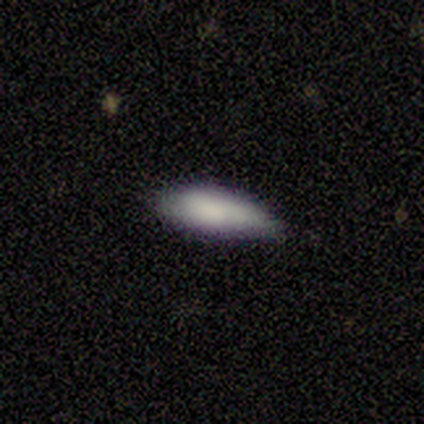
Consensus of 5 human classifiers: A smooth galaxy with no disk features (100%) that is in between round and cigar-shaped (80%).

Vote fractions:
- Smooth or featured? smooth: 100% / featured or disk: 0% / star or artifact: 0%
- How rounded? in between: 80% / cigar-shaped: 20% / round: 0%
- Merging? minor disturbance: 60% / none: 20% / major disturbance: 20% / merger: 0%